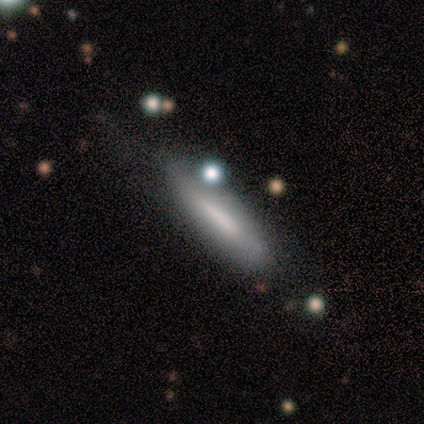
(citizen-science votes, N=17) smooth 82%, featured or disk 12%, star or artifact 6%. Down the decision tree: how rounded — cigar-shaped (86%); merging — none (62%).